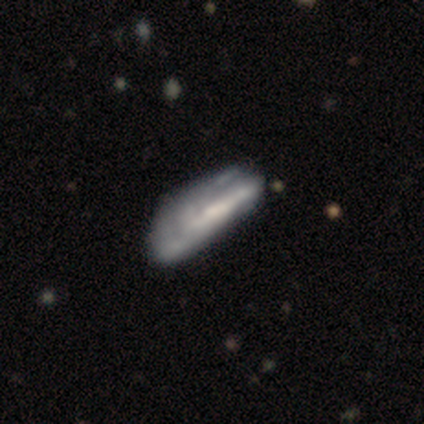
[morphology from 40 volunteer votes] Smooth or featured?
  - featured or disk: 60% *
  - smooth: 35%
  - star or artifact: 5%
Edge-on disk?
  - no: 79% *
  - yes: 21%
Bar?
  - no: 58% *
  - strong: 37%
  - weak: 5%
Spiral arms?
  - yes: 53% *
  - no: 47%
Spiral winding?
  - tight: 40% * (tied)
  - loose: 40% * (tied)
  - medium: 20%
Spiral arm count?
  - can't tell: 60% *
  - 2: 30%
  - 1: 10%
  - 3: 0%
  - 4: 0%
  - more than 4: 0%
Bulge size?
  - none: 53% *
  - small: 32%
  - moderate: 16%
  - dominant: 0%
  - large: 0%
Merging?
  - major disturbance: 29% *
  - none: 24%
  - minor disturbance: 16%
  - merger: 0%